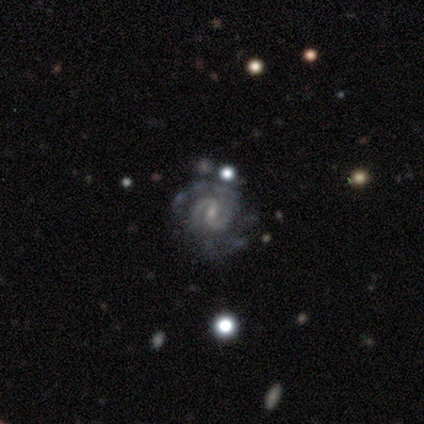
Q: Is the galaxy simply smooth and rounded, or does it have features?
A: featured or disk — 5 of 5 (100%).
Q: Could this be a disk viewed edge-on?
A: no — 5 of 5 (100%).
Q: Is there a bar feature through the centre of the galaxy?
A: no — 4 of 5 (80%).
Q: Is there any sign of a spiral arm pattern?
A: yes — 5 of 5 (100%).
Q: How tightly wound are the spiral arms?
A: tight — 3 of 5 (60%).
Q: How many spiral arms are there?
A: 2 — 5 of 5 (100%).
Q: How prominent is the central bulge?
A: small — 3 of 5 (60%).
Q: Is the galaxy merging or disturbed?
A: none — 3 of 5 (60%).